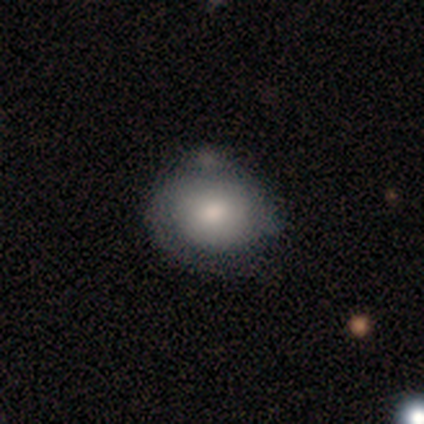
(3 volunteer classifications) smooth_or_featured: smooth (p=1.00)
how_rounded: round (p=1.00)
merging: minor disturbance (p=0.67) [alt: none p=0.33]